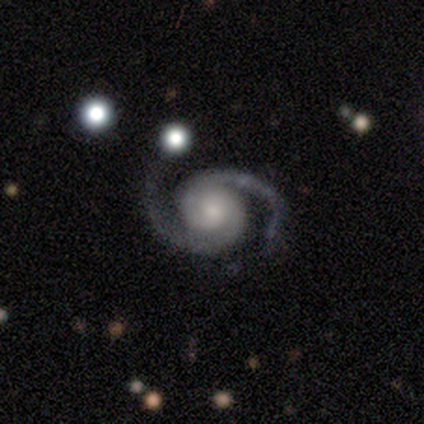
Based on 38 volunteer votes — A featured or disk galaxy (100%) with no bar (78%), 2 (97%) medium (62%) spiral arms (100%) and a moderate central bulge (46%).

Vote fractions:
- Smooth or featured? featured or disk: 100% / smooth: 0% / star or artifact: 0%
- Edge-on disk? no: 97% / yes: 3%
- Bar? no: 78% / strong: 11% / weak: 11%
- Spiral arms? yes: 100% / no: 0%
- Spiral winding? medium: 62% / tight: 32% / loose: 5%
- Spiral arm count? 2: 97% / 3: 3% / 1: 0% / 4: 0% / more than 4: 0% / can't tell: 0%
- Bulge size? moderate: 46% / small: 43% / large: 5% / dominant: 3% / none: 3%
- Merging? none: 42% / minor disturbance: 11% / major disturbance: 5% / merger: 3%